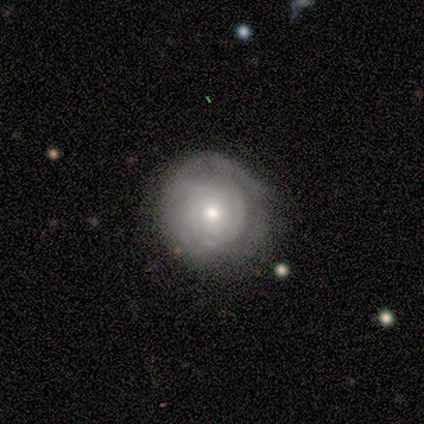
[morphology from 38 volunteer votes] A featured or disk galaxy (76%) with no bar (86%), tight (95%) spiral arms (76%) and a small central bulge (55%). Merging: none (78%).